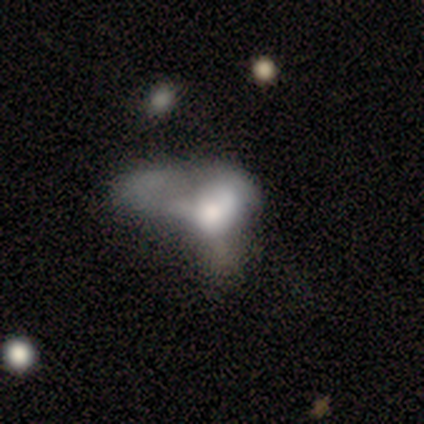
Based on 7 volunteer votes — Q: Smooth or featured?
A: featured or disk (57%); runner-up: smooth (43%)
Q: Edge-on disk?
A: no (100%)
Q: Bar?
A: no (100%)
Q: Spiral arms?
A: no (75%); runner-up: yes (25%)
Q: Bulge size?
A: large (50%); runner-up: dominant (25%)
Q: Merging?
A: merger (71%); runner-up: none (14%)